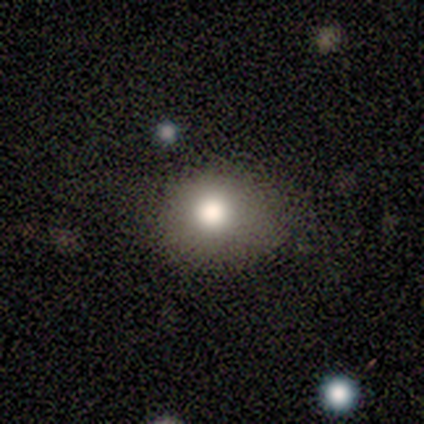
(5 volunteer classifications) Overall: smooth (80%). How rounded: round (100%). Merging: none (100%).